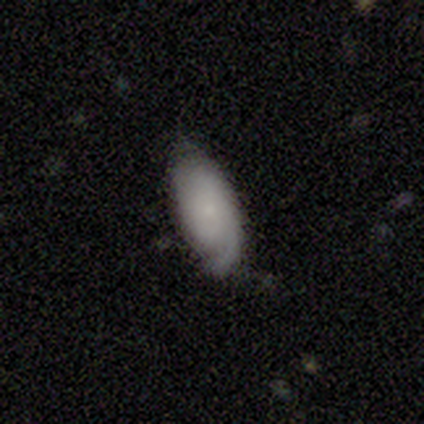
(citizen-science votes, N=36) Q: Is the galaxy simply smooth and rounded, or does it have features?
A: smooth — 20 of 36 (56%).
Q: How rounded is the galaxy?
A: in between — 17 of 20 (85%).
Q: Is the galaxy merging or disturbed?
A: none — 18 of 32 (56%).